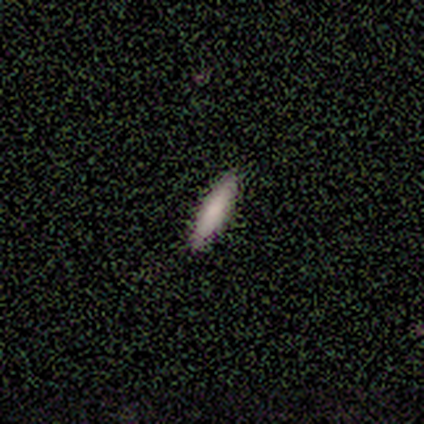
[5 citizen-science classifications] Morphology: type=smooth (80%); roundness=in between (50%, tied with cigar-shaped); merging=none (100%).